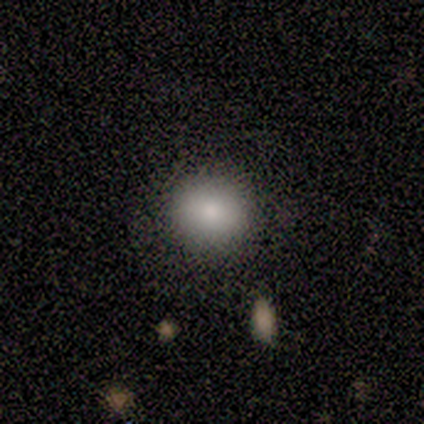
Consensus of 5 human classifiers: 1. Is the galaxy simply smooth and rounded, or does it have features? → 60% star or artifact, 40% smooth, 0% featured or disk.